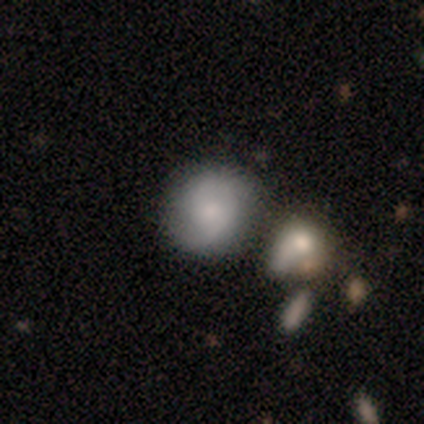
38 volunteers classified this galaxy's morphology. Q: Smooth or featured?
A: smooth (47%); runner-up: featured or disk (42%)
Q: How rounded?
A: round (72%); runner-up: in between (28%)
Q: Merging?
A: none (68%); runner-up: merger (21%)